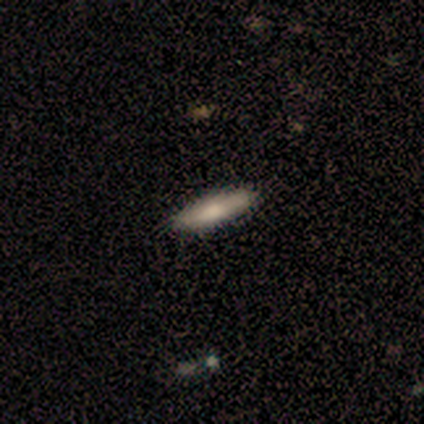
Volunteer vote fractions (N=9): Smooth or featured? 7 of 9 (78%) said smooth. How rounded? 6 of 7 (86%) said cigar-shaped. Merging? 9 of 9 (100%) said none.